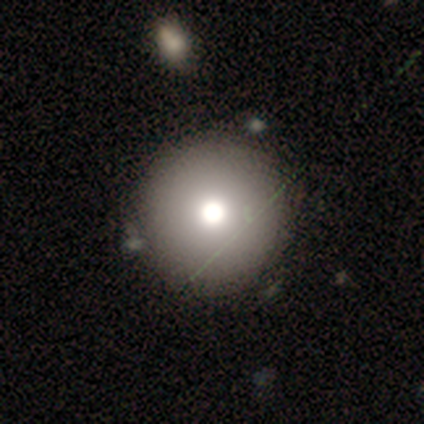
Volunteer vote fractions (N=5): A smooth galaxy with no disk features (80%) that is round (100%).

Vote fractions:
- Smooth or featured? smooth: 80% / featured or disk: 20% / star or artifact: 0%
- How rounded? round: 100% / in between: 0% / cigar-shaped: 0%
- Merging? none: 100% / minor disturbance: 0% / major disturbance: 0% / merger: 0%